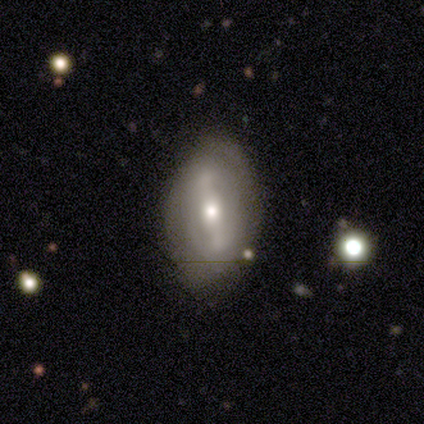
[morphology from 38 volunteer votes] Smooth or featured: featured or disk — 58% (smooth — 32%)
Edge-on disk: no — 91% (yes — 9%)
Bar: strong — 65% (weak — 30%)
Spiral arms: yes — 70% (no — 30%)
Spiral winding: loose — 43% (medium — 36%)
Spiral arm count: 2 — 71% (1 — 7%)
Bulge size: moderate — 85% (small — 10%)
Merging: none — 65% (minor disturbance — 29%)